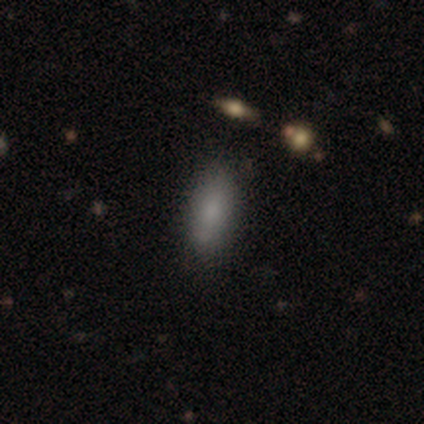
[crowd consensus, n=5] Smooth or featured? 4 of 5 (80%) said smooth. How rounded? 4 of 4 (100%) said in between. Merging? 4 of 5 (80%) said none.